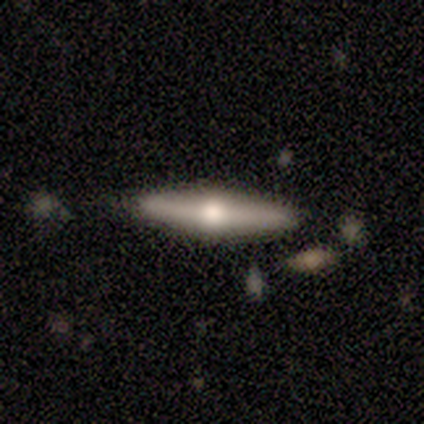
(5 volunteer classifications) Smooth or featured?
  - featured or disk: 60% *
  - smooth: 20%
  - star or artifact: 20%
Edge-on disk?
  - yes: 67% *
  - no: 33%
Edge-on bulge?
  - rounded: 100% *
  - boxy: 0%
  - none: 0%
Merging?
  - none: 100% *
  - minor disturbance: 0%
  - major disturbance: 0%
  - merger: 0%